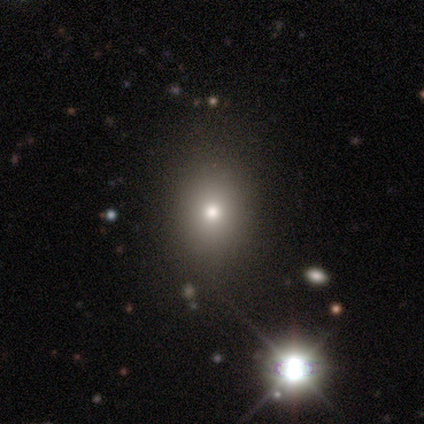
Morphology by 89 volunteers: Q: Smooth or featured?
A: smooth (61%); runner-up: star or artifact (30%)
Q: How rounded?
A: round (56%); runner-up: in between (43%)
Q: Merging?
A: none (89%); runner-up: minor disturbance (10%)